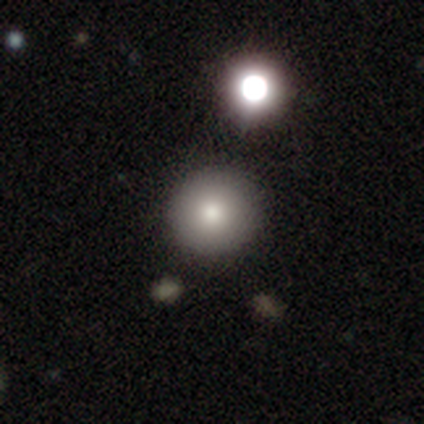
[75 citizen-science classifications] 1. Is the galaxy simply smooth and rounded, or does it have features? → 89% smooth, 5% featured or disk, 5% star or artifact.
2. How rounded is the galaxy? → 97% round, 3% in between, 0% cigar-shaped.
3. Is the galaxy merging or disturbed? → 44% none, 11% merger, 3% minor disturbance, 0% major disturbance.